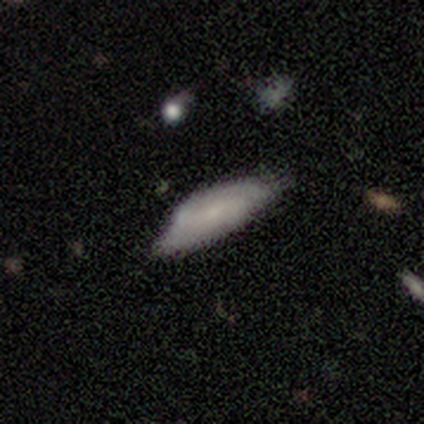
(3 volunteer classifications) Overall: smooth (100%). How rounded: in between (67%; cigar-shaped 33%). Merging: minor disturbance (67%; none 33%).